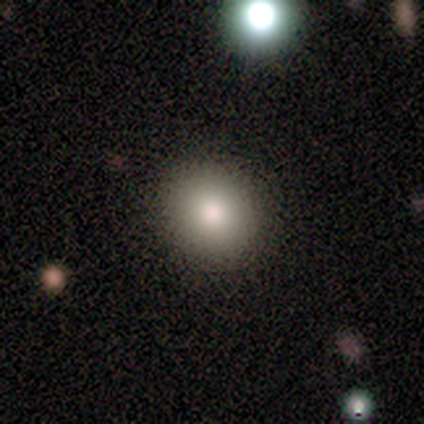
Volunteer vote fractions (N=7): This appears to be a smooth galaxy with no disk features (100%) that is round (100%). Merging: none (100%).